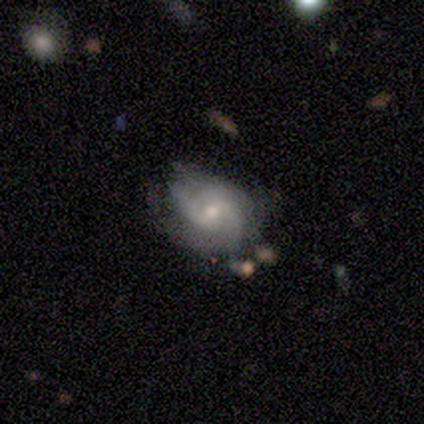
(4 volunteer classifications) Q: Smooth or featured?
A: featured or disk (50%); runner-up: smooth (25%)
Q: Edge-on disk?
A: no (100%)
Q: Bar?
A: weak (50%); tied with: no (50%)
Q: Spiral arms?
A: yes (100%)
Q: Spiral winding?
A: medium (100%)
Q: Spiral arm count?
A: 2 (100%)
Q: Bulge size?
A: small (100%)
Q: Merging?
A: none (67%); runner-up: major disturbance (33%)